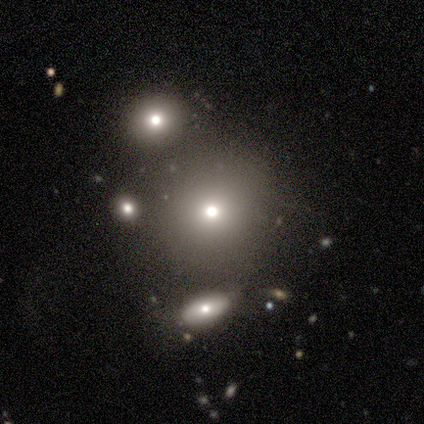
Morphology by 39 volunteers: smooth-or-featured: smooth: 69% | featured or disk: 15% | star or artifact: 15%
  how-rounded: round: 93% | in between: 7% | cigar-shaped: 0%
  merging: none: 64% | minor disturbance: 15% | merger: 12% | major disturbance: 9%